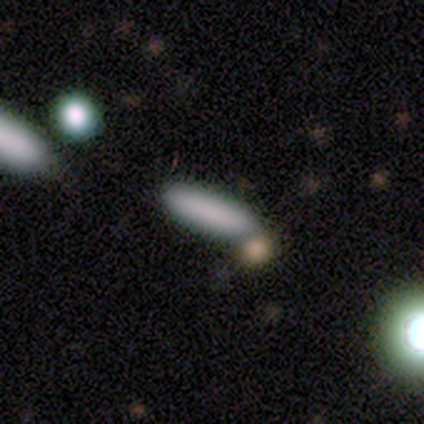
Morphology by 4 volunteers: A smooth galaxy with no disk features (75%) that is in between round and cigar-shaped (67%).

Vote fractions:
- Smooth or featured? smooth: 75% / star or artifact: 25% / featured or disk: 0%
- How rounded? in between: 67% / cigar-shaped: 33% / round: 0%
- Merging? none: 67% / merger: 33% / minor disturbance: 0% / major disturbance: 0%